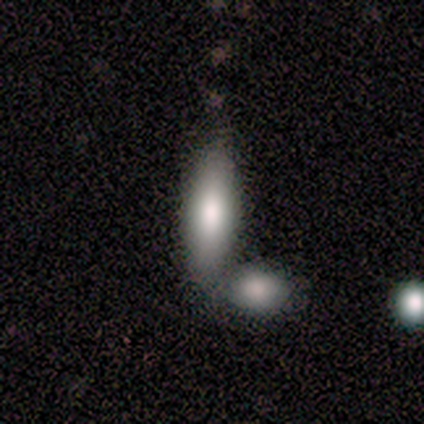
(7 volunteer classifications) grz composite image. It shows a smooth galaxy with no disk features (100%) that is in between round and cigar-shaped (71%). Merging: none (71%).